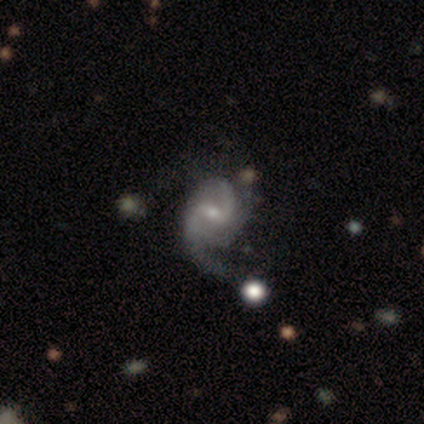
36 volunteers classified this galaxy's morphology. Volunteers were most divided on "spiral arm count": 2: 38%, 3: 34%, 1: 12%, can't tell: 12%, 4: 3%, more than 4: 0%. Remaining: edge-on disk — no (100%); spiral arms — yes (100%); smooth or featured — featured or disk (89%); bulge size — small (69%); bar — weak (59%); merging — none (44%); spiral winding — medium (41%).